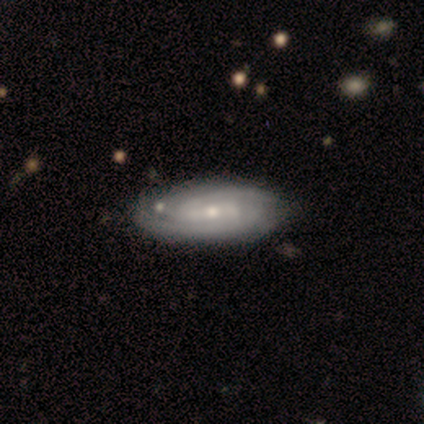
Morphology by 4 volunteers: A featured or disk galaxy (75%) with no bar (67%), tight (100%) spiral arms (100%) and a small central bulge (67%). Merging: none (100%).